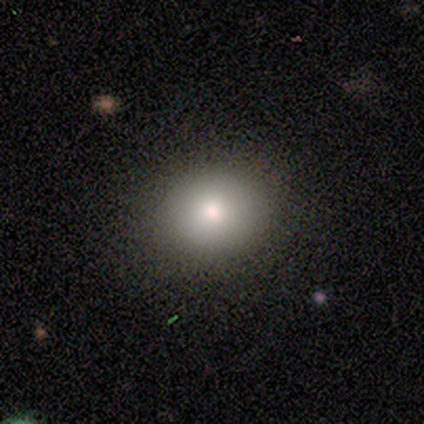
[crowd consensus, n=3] This appears to be a smooth galaxy with no disk features (67%) that is round (100%). Merging: none (50%, tied with minor disturbance).